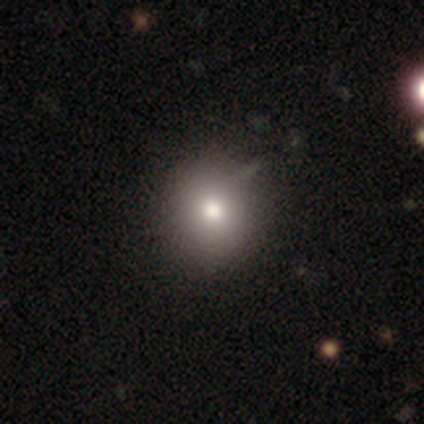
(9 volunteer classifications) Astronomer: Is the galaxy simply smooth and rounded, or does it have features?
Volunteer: smooth — 78%.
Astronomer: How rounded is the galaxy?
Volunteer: round — 71%.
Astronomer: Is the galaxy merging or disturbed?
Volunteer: none — 100%.